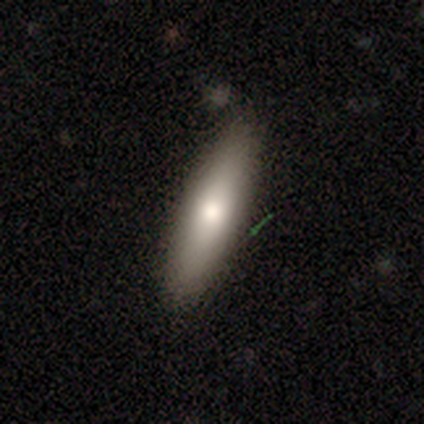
This is clearly a smooth galaxy (83%). How rounded: likely cigar-shaped (63%). Merging: possibly none (57%).